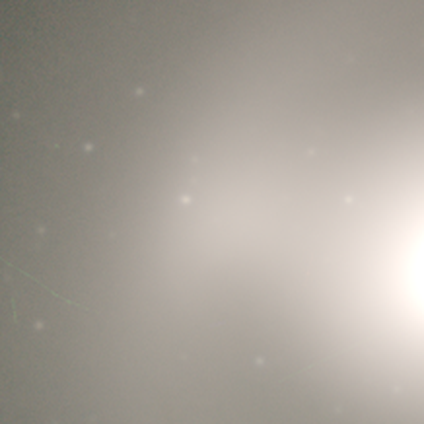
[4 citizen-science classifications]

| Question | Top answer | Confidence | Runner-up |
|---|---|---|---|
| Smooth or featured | smooth | 50% | tied: star or artifact (50%) |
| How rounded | round | 100% | — |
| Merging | none | 100% | — |